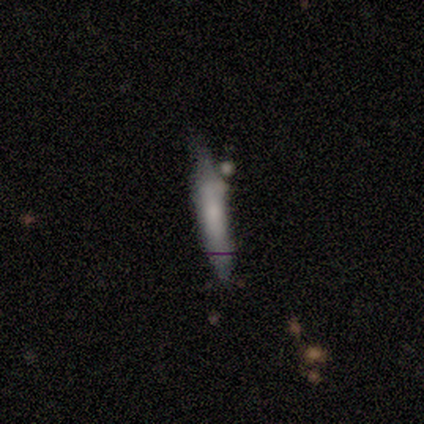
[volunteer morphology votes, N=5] smooth 60%, featured or disk 20%, star or artifact 20%. Down the decision tree: how rounded — cigar-shaped (100%); merging — none (75%).